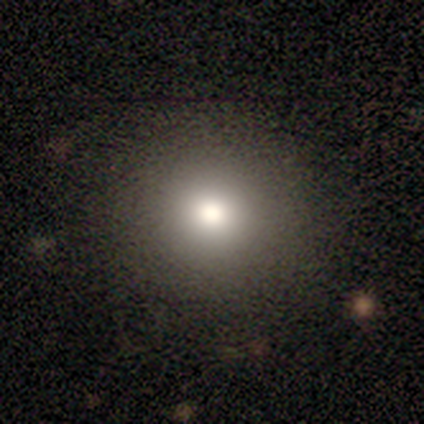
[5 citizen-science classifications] Overall: smooth (80%). How rounded: round (75%). Merging: none (80%).